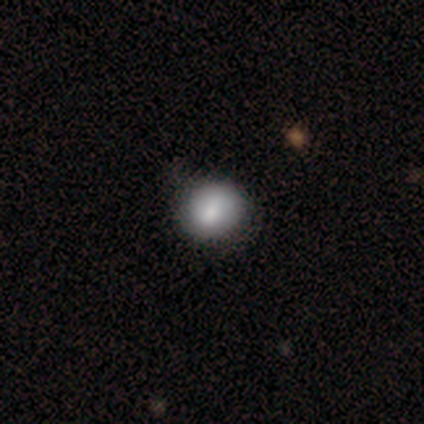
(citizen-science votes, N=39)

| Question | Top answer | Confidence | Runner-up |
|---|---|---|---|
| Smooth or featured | smooth | 82% | featured or disk (13%) |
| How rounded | round | 78% | in between (22%) |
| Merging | none | 51% | minor disturbance (19%) |